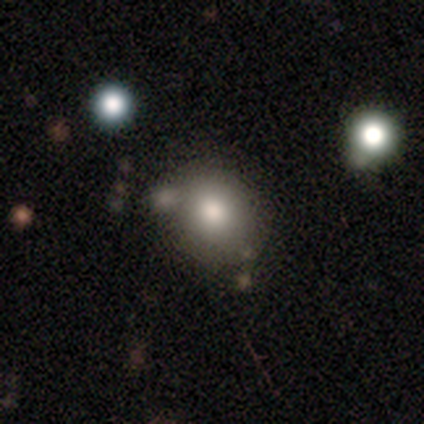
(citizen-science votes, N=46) Morphology: type=smooth (74%); roundness=round (65%); merging=none (68%).